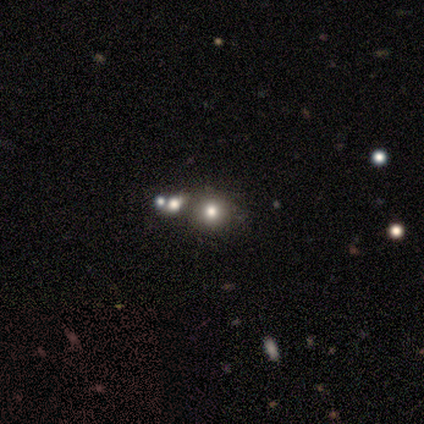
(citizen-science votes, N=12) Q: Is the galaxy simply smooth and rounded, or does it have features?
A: smooth — 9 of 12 (75%).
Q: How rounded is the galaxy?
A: round — 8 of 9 (89%).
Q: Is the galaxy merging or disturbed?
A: none — 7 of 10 (70%).